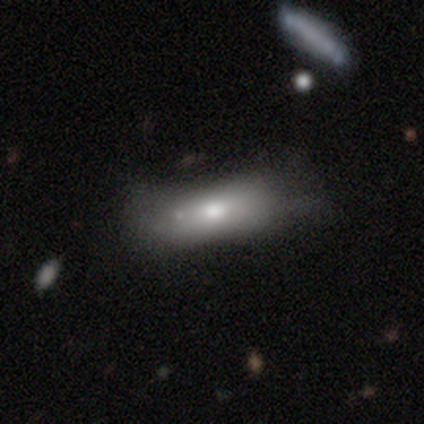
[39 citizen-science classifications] smooth 74%, featured or disk 23%, star or artifact 3%. Down the decision tree: how rounded — in between (66%); merging — none (39%).